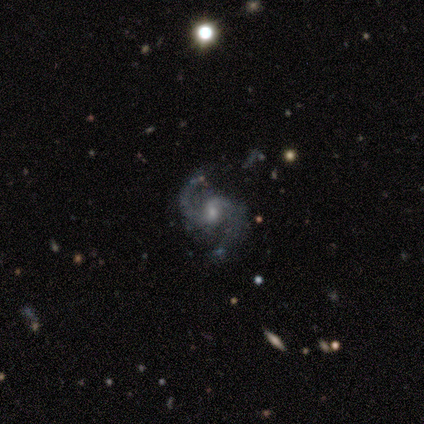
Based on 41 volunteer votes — Volunteers were most divided on "bulge size" (2-way tie): moderate: 45%, small: 45%, none: 8%, large: 3%, dominant: 0%. More confident: edge-on disk — no (100%); spiral arms — yes (100%); spiral arm count — 2 (97%); smooth or featured — featured or disk (93%); spiral winding — medium (68%); merging — none (67%); bar — no (55%).